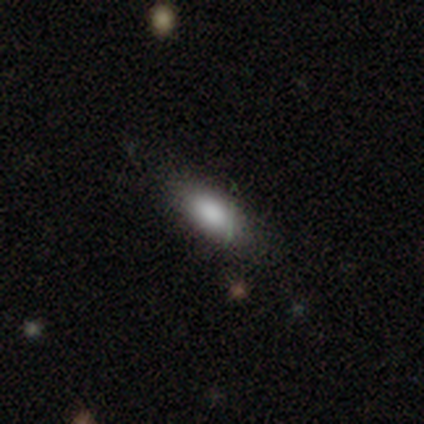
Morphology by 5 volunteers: Smooth or featured? smooth (80%)
How rounded? in between (100%)
Merging? none (100%)